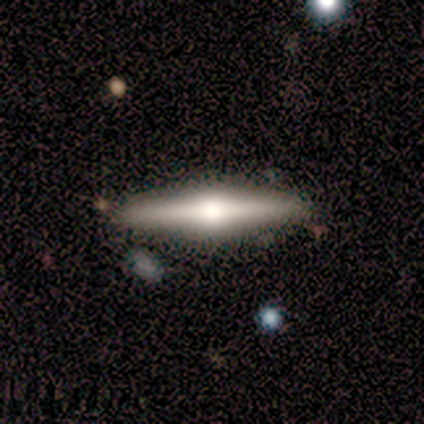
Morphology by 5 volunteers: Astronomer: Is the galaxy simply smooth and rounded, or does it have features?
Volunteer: featured or disk — 60%.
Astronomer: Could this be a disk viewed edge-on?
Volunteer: yes — 100%.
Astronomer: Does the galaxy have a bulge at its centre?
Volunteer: rounded — 100%.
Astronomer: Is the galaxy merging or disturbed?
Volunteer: none — 100%.